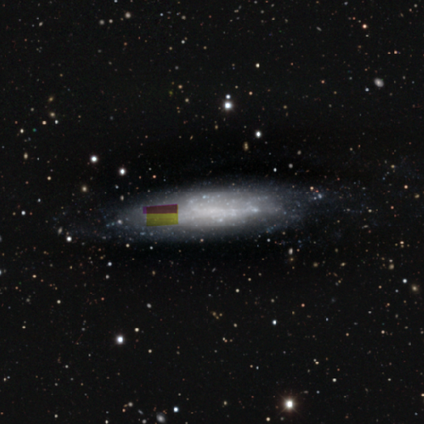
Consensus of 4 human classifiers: Morphology: type=smooth (50%); roundness=in between (50%, tied with cigar-shaped); merging=none (67%).